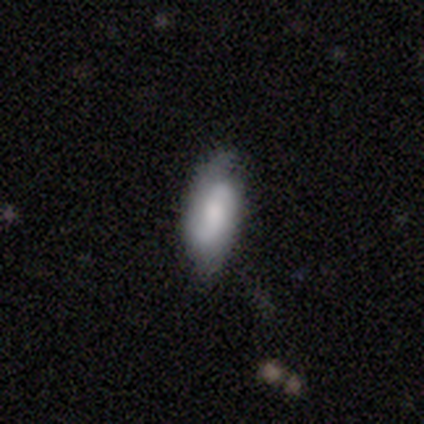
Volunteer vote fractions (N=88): Morphology: type=featured or disk (59%); edge-on=no (96%); bar=weak (46%, tied with no); spiral arms=yes (80%); winding=tight (38%, tied with medium); arm count=2 (92%); bulge=small (38%); merging=none (69%).